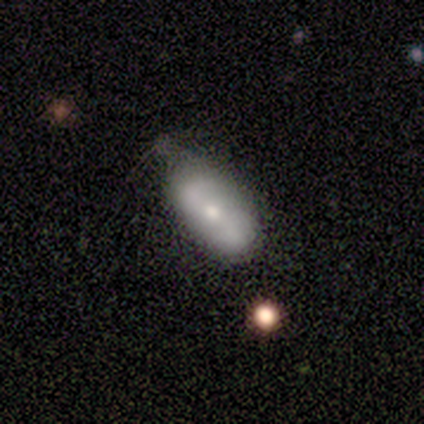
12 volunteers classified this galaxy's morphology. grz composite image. It shows a featured or disk galaxy (50%) with a strong bar (60%), 2 (100%) loose (50%) spiral arms (80%) and a moderate central bulge (80%). Merging: none (55%).